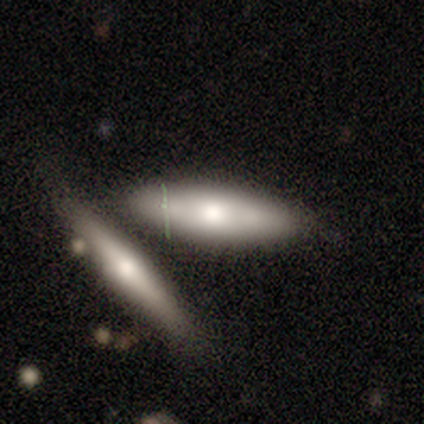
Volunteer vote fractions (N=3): Smooth or featured? smooth (100%)
How rounded? in between (100%)
Merging? merger (100%)